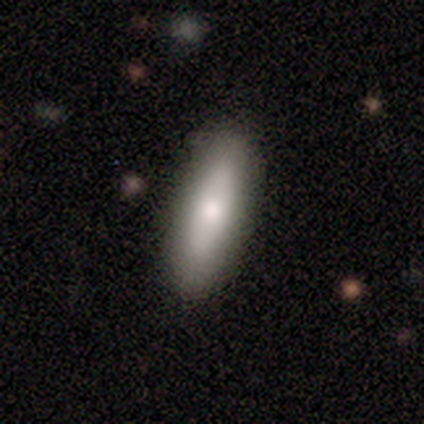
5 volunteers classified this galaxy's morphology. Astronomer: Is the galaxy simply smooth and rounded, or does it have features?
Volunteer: smooth — 100%.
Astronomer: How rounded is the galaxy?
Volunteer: in between — 60% (runner-up: cigar-shaped, 40%).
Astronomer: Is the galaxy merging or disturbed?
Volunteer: none — 100%.